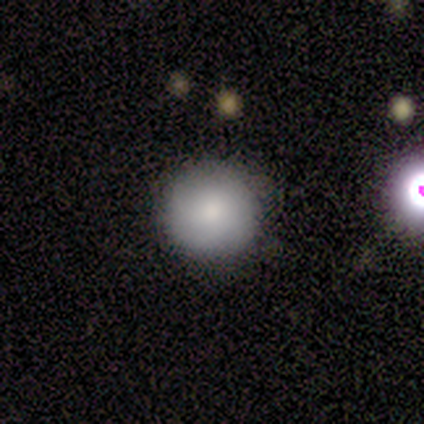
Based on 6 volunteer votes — Smooth or featured? smooth (83%)
How rounded? round (100%)
Merging? none (100%)